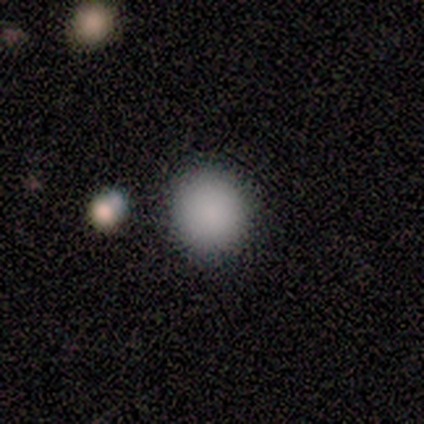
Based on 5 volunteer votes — Smooth or featured: smooth — 100%
How rounded: round — 100%
Merging: none — 60% (merger — 40%)